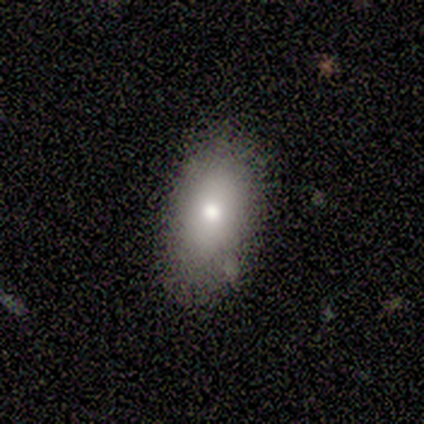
A smooth galaxy with no disk features (60%) that is in between round and cigar-shaped (67%).

Vote fractions:
- Smooth or featured? smooth: 60% / featured or disk: 20% / star or artifact: 20%
- How rounded? in between: 67% / round: 33% / cigar-shaped: 0%
- Merging? none: 75% / minor disturbance: 25% / major disturbance: 0% / merger: 0%